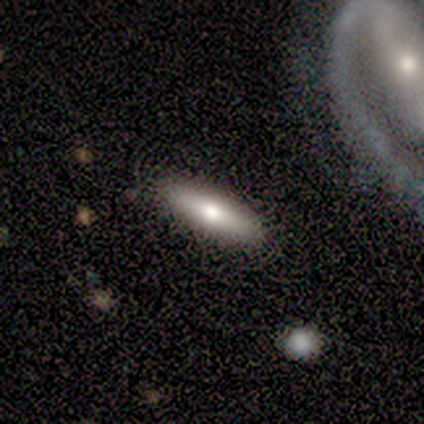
Smooth or featured?
  - featured or disk: 80% *
  - smooth: 20%
  - star or artifact: 0%
Edge-on disk?
  - yes: 75% *
  - no: 25%
Edge-on bulge?
  - rounded: 100% *
  - boxy: 0%
  - none: 0%
Merging?
  - none: 100% *
  - minor disturbance: 0%
  - major disturbance: 0%
  - merger: 0%